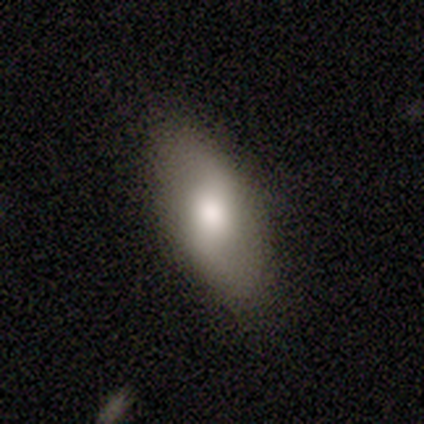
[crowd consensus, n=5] featured or disk 60%, smooth 20%, star or artifact 20%. Down the decision tree: edge-on disk — no (100%); bar — weak (67%); spiral arms — no (67%); bulge size — moderate (67%); merging — none (100%).